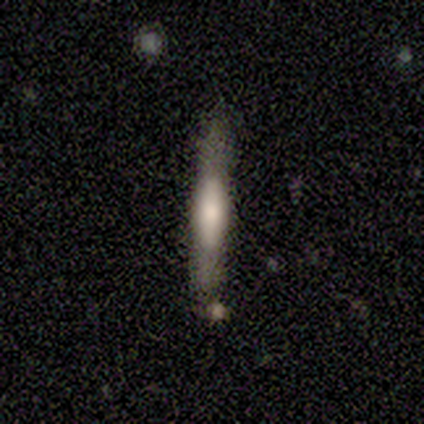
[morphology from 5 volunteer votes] Overall: featured or disk (80%). Edge-on disk: yes (100%). Edge-on bulge: rounded (50%; boxy 25%). Merging: none (100%).